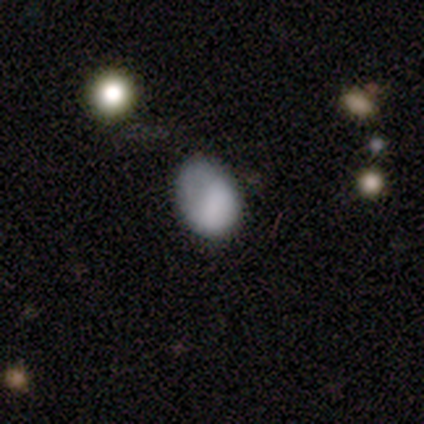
Smooth or featured? smooth (70%)
How rounded? in between (86%)
Merging? none (44%, tied with minor disturbance)